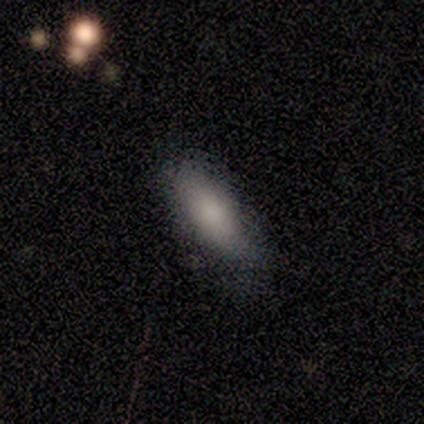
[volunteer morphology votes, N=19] Smooth or featured: smooth — 89% (star or artifact — 11%)
How rounded: in between — 71% (cigar-shaped — 18%)
Merging: none — 76% (minor disturbance — 24%)